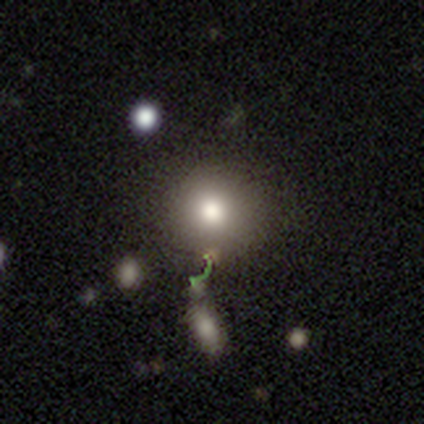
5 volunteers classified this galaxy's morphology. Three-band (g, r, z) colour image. It shows a smooth galaxy with no disk features (80%) that is round (100%). Merging: none (75%).